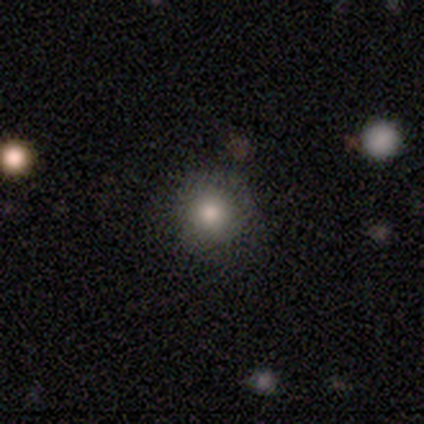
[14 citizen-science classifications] This is likely a smooth galaxy (79%). How rounded: clearly round (100%). Merging: likely none (75%).